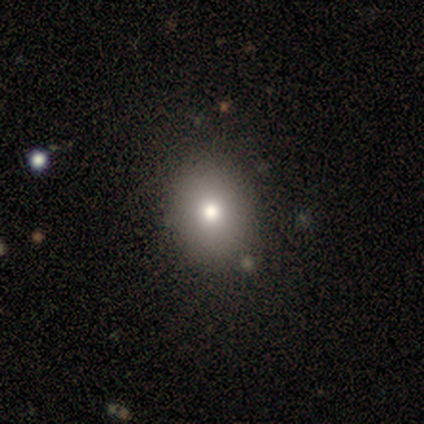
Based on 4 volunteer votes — Overall: smooth (75%). How rounded: in between (100%). Merging: none (100%).